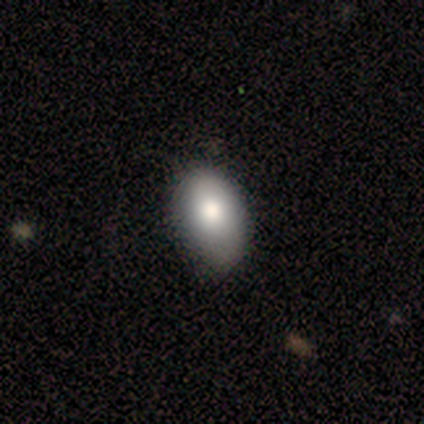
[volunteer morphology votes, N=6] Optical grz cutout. It shows a smooth galaxy with no disk features (100%) that is in between round and cigar-shaped (100%). Merging: none (67%).